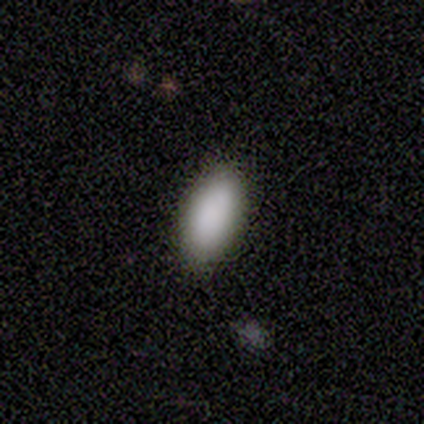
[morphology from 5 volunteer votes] Q: Smooth or featured?
A: smooth (100%)
Q: How rounded?
A: in between (100%)
Q: Merging?
A: none (80%); runner-up: minor disturbance (20%)